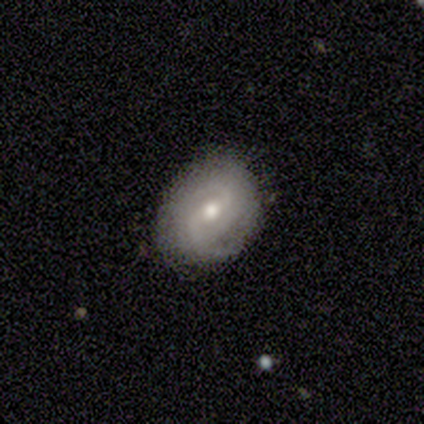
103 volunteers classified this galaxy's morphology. A featured or disk galaxy (69%) with a weak bar (51%), 2 (63%) medium (50%) spiral arms (89%) and a moderate central bulge (71%). Merging: none (79%).